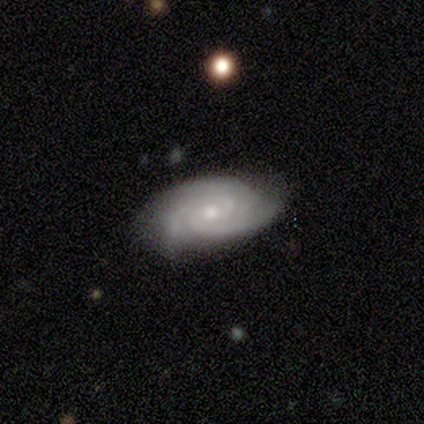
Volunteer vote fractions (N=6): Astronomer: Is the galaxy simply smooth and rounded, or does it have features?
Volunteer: featured or disk — 83%.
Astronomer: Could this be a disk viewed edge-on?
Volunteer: no — 100%.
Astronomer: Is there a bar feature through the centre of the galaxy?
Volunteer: no — 60%.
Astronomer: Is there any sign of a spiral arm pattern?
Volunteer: yes — 100%.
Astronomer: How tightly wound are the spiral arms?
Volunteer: tight — 100%.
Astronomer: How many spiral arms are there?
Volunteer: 3 — 60%.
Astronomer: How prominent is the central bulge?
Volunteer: small — 60% (runner-up: moderate, 40%).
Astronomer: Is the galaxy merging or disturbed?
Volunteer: none — 100%.